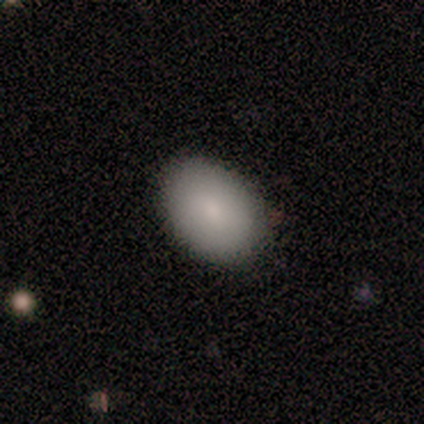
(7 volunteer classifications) Morphology: type=smooth (100%); roundness=in between (100%); merging=none (100%).